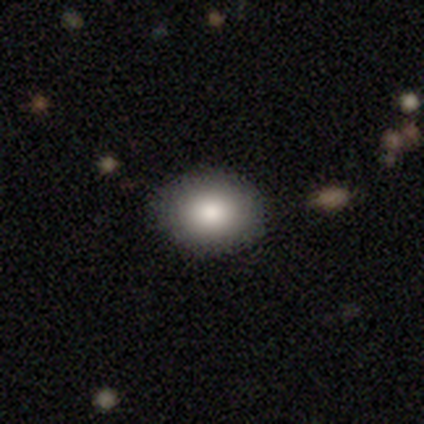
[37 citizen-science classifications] A smooth galaxy with no disk features (89%) that is in between round and cigar-shaped (61%). Merging: none (97%).